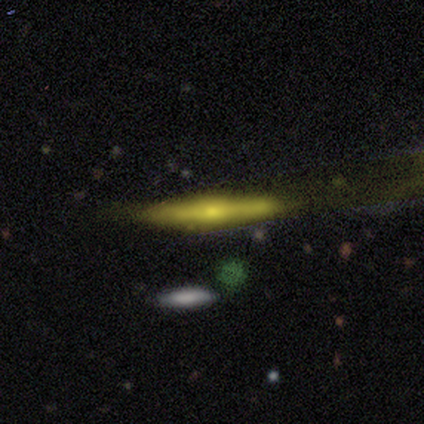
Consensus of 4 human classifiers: This is possibly a smooth galaxy (50%, tied with featured or disk). How rounded: clearly cigar-shaped (100%). Merging: likely minor disturbance (75%).